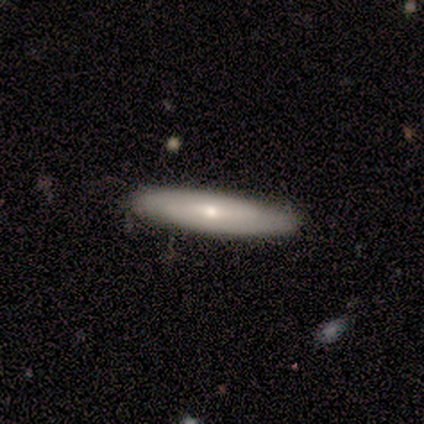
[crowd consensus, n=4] Q: Smooth or featured?
A: featured or disk (50%); runner-up: smooth (25%)
Q: Edge-on disk?
A: yes (100%)
Q: Edge-on bulge?
A: none (50%); tied with: rounded (50%)
Q: Merging?
A: none (100%)